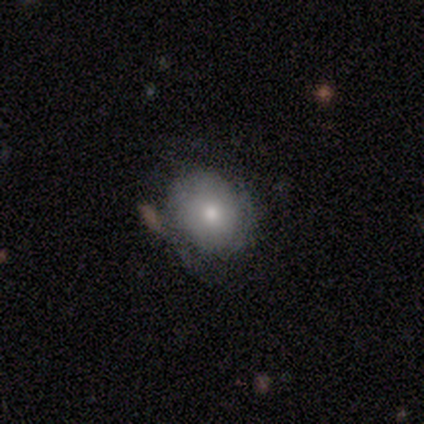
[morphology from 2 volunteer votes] type=smooth (50%, tied with featured or disk); roundness=round (100%); merging=none (100%).